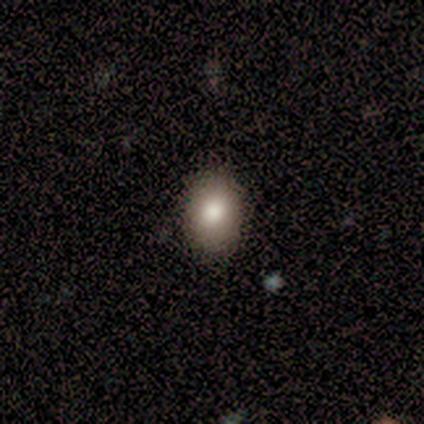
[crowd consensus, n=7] Smooth or featured: smooth — 71% (featured or disk — 14%)
How rounded: in between — 60% (round — 40%)
Merging: none — 100%